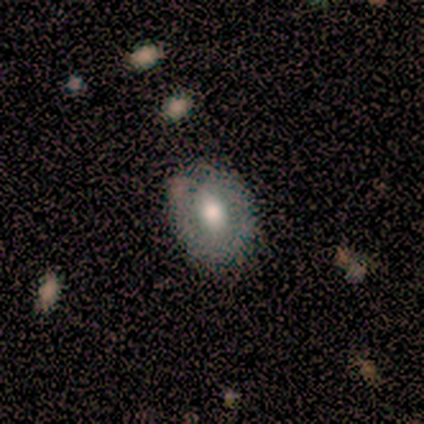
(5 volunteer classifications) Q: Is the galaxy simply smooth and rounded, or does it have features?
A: smooth — 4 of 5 (80%).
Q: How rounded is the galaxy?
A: round — 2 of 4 (50%, tied with in between).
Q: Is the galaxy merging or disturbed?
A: none — 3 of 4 (75%).